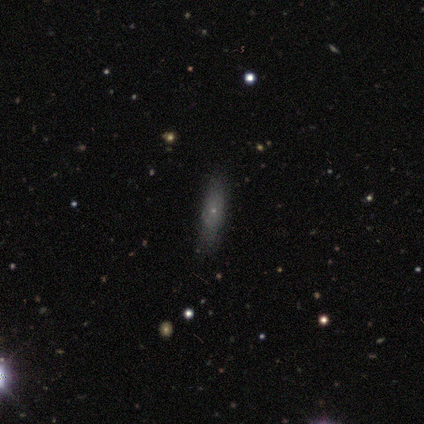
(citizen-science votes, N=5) Morphology: type=smooth (40%, tied with featured or disk); roundness=cigar-shaped (100%); merging=none (100%).